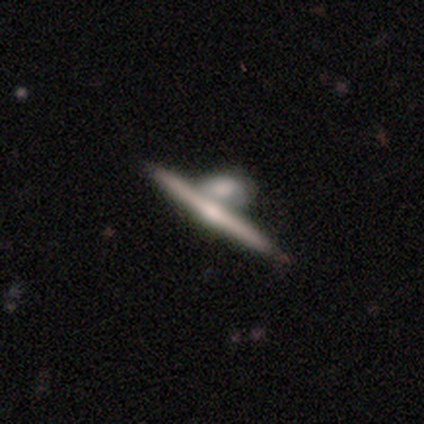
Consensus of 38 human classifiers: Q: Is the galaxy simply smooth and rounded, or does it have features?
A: featured or disk — 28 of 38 (74%).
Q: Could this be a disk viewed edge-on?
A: yes — 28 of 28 (100%).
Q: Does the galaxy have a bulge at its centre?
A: rounded — 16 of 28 (57%).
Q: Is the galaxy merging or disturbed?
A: merger — 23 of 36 (64%).